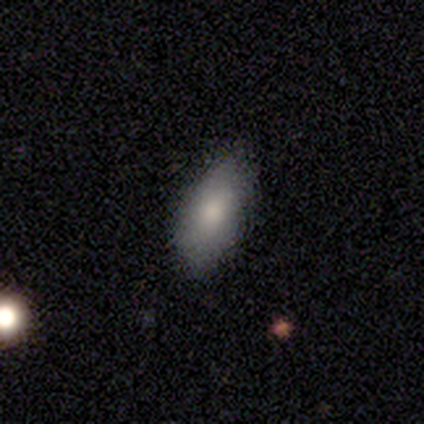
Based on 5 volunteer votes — Overall: smooth (80%). How rounded: in between (75%). Merging: none (100%).